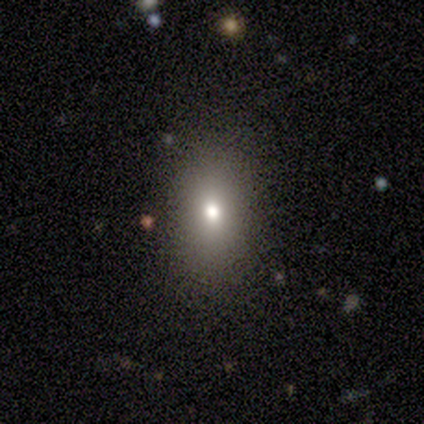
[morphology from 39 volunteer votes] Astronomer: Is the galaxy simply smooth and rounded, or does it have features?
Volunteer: smooth — 79%.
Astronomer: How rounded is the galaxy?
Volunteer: in between — 77%.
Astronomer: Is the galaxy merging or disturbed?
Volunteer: none — 89%.